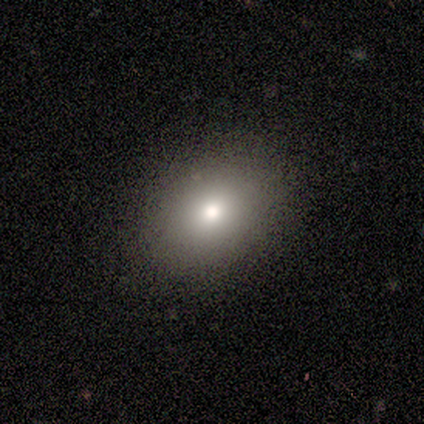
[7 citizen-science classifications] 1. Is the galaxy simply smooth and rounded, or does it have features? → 86% smooth, 14% featured or disk, 0% star or artifact.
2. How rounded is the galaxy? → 83% in between, 17% round, 0% cigar-shaped.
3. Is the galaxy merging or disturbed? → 86% none, 14% minor disturbance, 0% major disturbance, 0% merger.